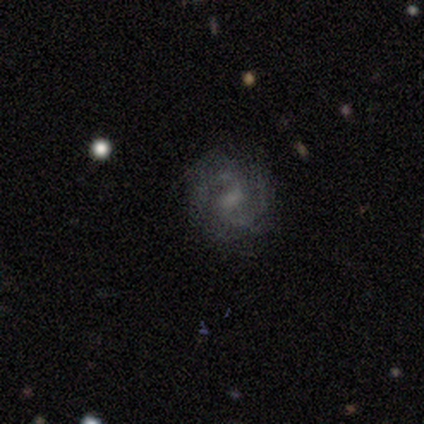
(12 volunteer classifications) featured or disk 92%, smooth 8%, star or artifact 0%. Down the decision tree: edge-on disk — no (100%); bar — weak (64%); spiral arms — yes (100%); spiral arm count — 2 (82%); spiral winding — medium (55%); bulge size — small (36%); merging — none (83%).